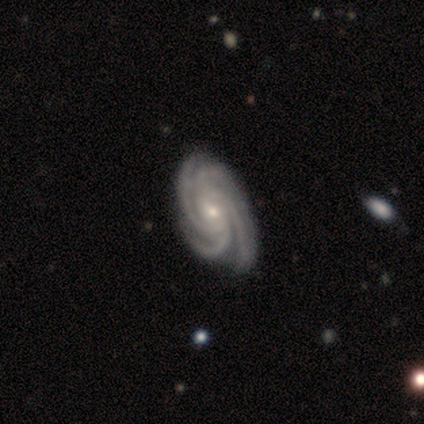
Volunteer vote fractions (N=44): featured or disk 98%, star or artifact 2%, smooth 0%. Down the decision tree: edge-on disk — no (100%); bar — no (72%); spiral arms — yes (100%); spiral arm count — 4 (79%); spiral winding — tight (58%); bulge size — small (53%); merging — none (63%).